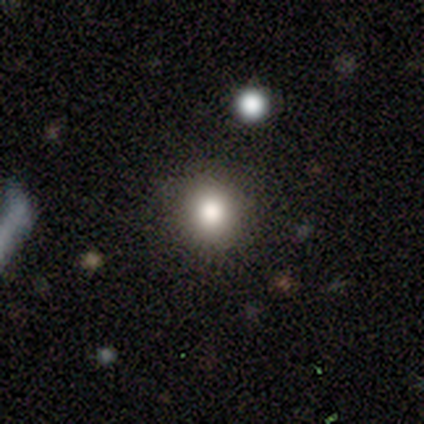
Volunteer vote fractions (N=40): Overall: smooth (75%). How rounded: round (77%). Merging: none (94%).